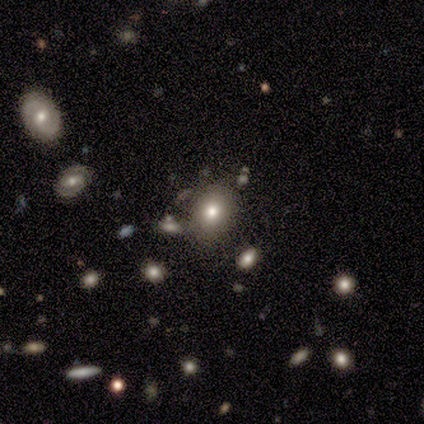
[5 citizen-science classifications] Q: Smooth or featured?
A: smooth (60%); runner-up: featured or disk (40%)
Q: How rounded?
A: in between (67%); runner-up: round (33%)
Q: Merging?
A: none (80%); runner-up: minor disturbance (20%)